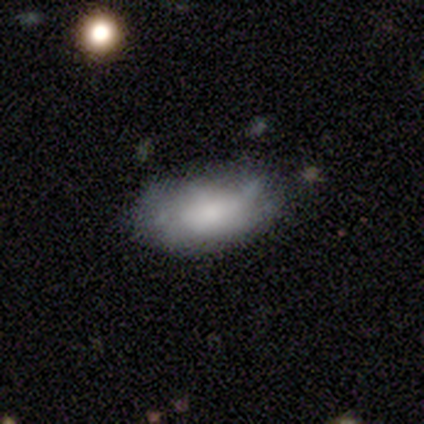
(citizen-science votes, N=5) smooth-or-featured: smooth: 100% | featured or disk: 0% | star or artifact: 0%
  how-rounded: in between: 100% | round: 0% | cigar-shaped: 0%
  merging: none: 40% (tied) | minor disturbance: 40% (tied) | major disturbance: 20% | merger: 0%